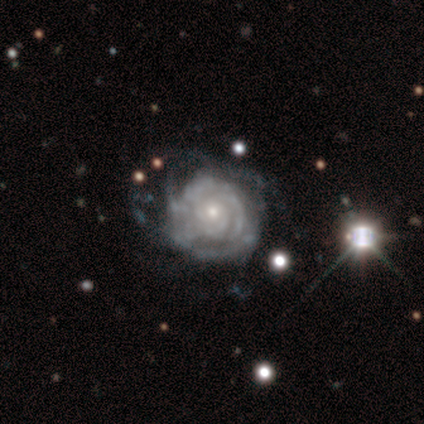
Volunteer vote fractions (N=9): This is likely a featured or disk galaxy (67%). It is clearly not viewed edge-on (100%). Bar: clearly no (83%). Spiral arm pattern: clearly yes (100%). Spiral arm count: marginally more than 4 (33%, tied with can't tell). Spiral winding: clearly tight (83%). Central bulge: likely small (67%). Merging: marginally none (33%, tied with major disturbance).